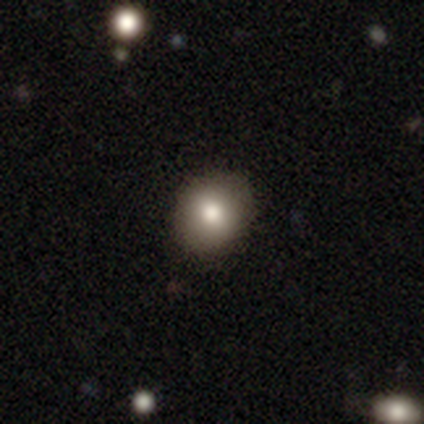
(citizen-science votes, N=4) A smooth galaxy with no disk features (75%) that is round (67%). Merging: none (100%).